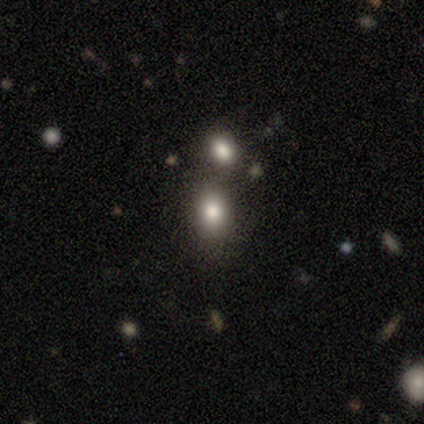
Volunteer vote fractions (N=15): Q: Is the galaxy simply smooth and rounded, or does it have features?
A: smooth — 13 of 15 (87%).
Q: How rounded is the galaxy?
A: in between — 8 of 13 (62%).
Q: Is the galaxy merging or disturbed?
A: merger — 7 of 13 (54%).